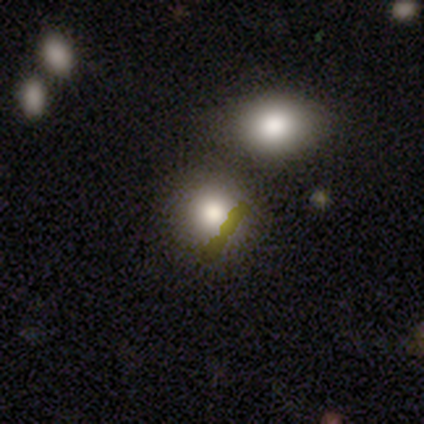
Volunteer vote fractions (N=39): smooth 74%, star or artifact 18%, featured or disk 8%. Down the decision tree: how rounded — round (86%); merging — none (72%).